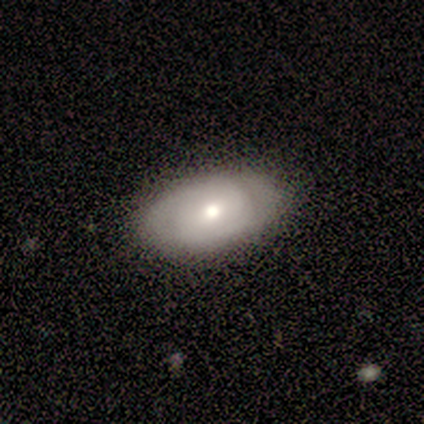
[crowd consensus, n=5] Smooth or featured? 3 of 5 (60%) said featured or disk. Edge-on disk? 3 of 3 (100%) said no. Bar? 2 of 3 (67%) said weak. Spiral arms? 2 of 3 (67%) said no. Bulge size? 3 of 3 (100%) said moderate. Merging? 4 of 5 (80%) said none.